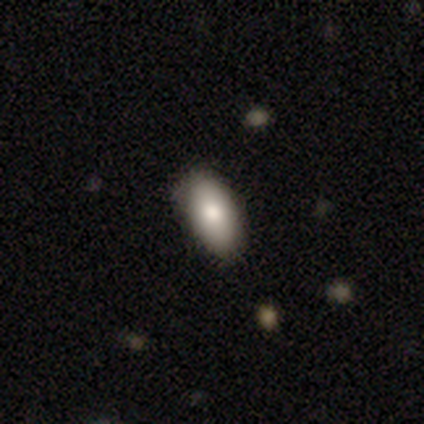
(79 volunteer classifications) Smooth or featured?
  - smooth: 85% *
  - featured or disk: 8%
  - star or artifact: 8%
How rounded?
  - in between: 96% *
  - cigar-shaped: 4%
  - round: 0%
Merging?
  - none: 49% *
  - minor disturbance: 12%
  - merger: 1%
  - major disturbance: 0%